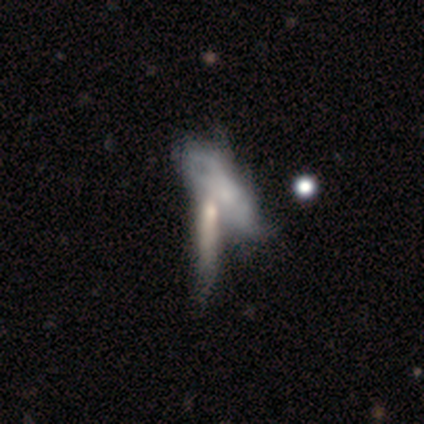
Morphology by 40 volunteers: Q: Smooth or featured?
A: featured or disk (57%); runner-up: smooth (38%)
Q: Edge-on disk?
A: no (74%); runner-up: yes (26%)
Q: Bar?
A: no (71%); runner-up: weak (29%)
Q: Spiral arms?
A: yes (65%); runner-up: no (35%)
Q: Spiral winding?
A: tight (45%); runner-up: medium (27%)
Q: Spiral arm count?
A: can't tell (73%); runner-up: 2 (27%)
Q: Bulge size?
A: moderate (41%); runner-up: small (29%)
Q: Merging?
A: merger (61%); runner-up: none (11%)